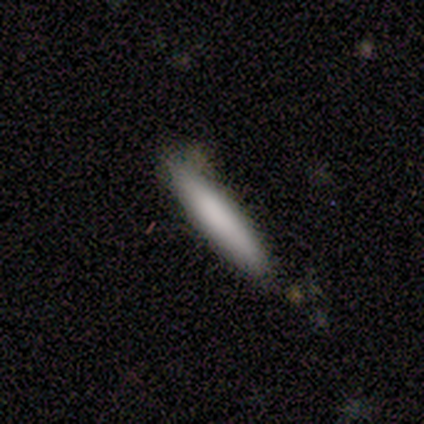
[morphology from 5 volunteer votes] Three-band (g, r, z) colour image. It shows a smooth galaxy with no disk features (80%) that is cigar-shaped (100%). Merging: none (60%).